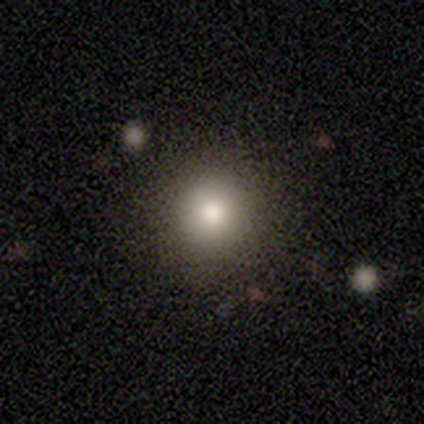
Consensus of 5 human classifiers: Smooth or featured? smooth (80%)
How rounded? round (100%)
Merging? none (75%)